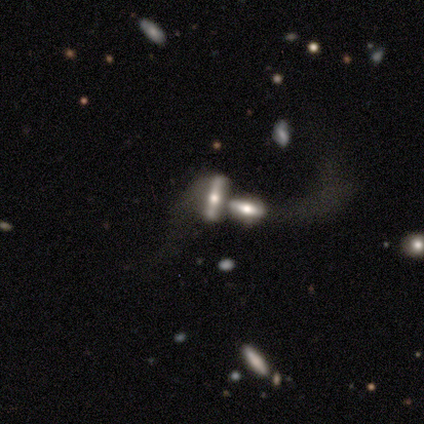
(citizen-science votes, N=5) smooth_or_featured: featured or disk (p=0.60) [alt: smooth p=0.20]
disk_edge_on: yes (p=1.00)
edge_on_bulge: rounded (p=0.67) [alt: boxy p=0.33]
merging: merger (p=1.00)